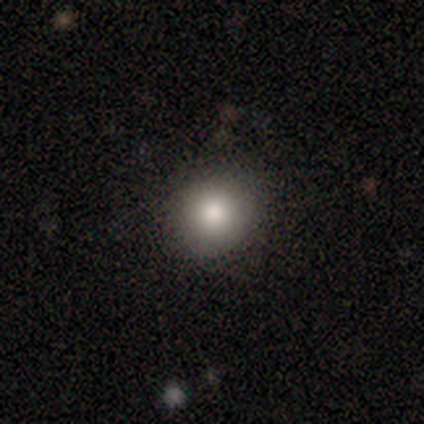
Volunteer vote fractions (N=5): This appears to be a smooth galaxy with no disk features (100%) that is round (100%). Merging: none (80%).